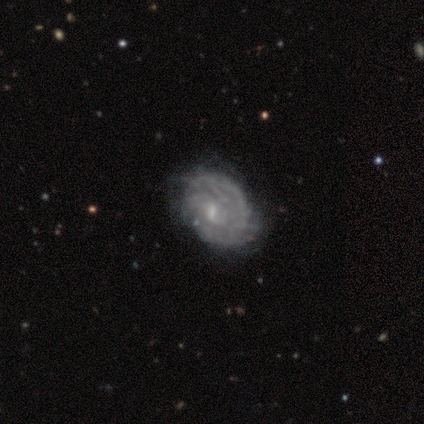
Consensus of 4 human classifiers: Overall: featured or disk (50%; smooth 25%). Edge-on disk: no (100%). Bar: weak (100%). Spiral arms: yes (100%). Spiral arm count: 2 (50%, tied with can't tell). Spiral winding: tight (50%, tied with loose). Bulge size: small (100%). Merging: minor disturbance (67%; none 33%).